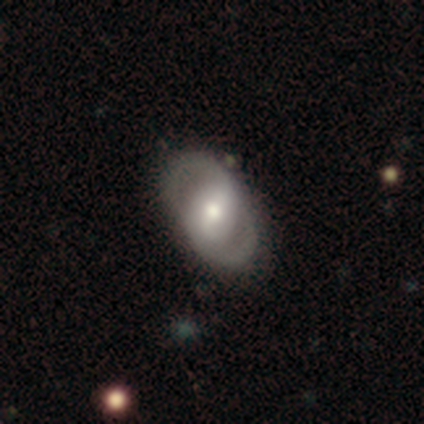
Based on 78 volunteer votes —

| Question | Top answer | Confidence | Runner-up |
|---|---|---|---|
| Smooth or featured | featured or disk | 85% | smooth (13%) |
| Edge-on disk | no | 98% | yes (2%) |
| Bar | strong | 42% | weak (38%) |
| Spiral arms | yes | 62% | no (38%) |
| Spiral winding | medium | 48% | tight (28%) |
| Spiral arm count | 2 | 95% | 1 (2%) |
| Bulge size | moderate | 74% | large (14%) |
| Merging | none | 45% | minor disturbance (9%) |